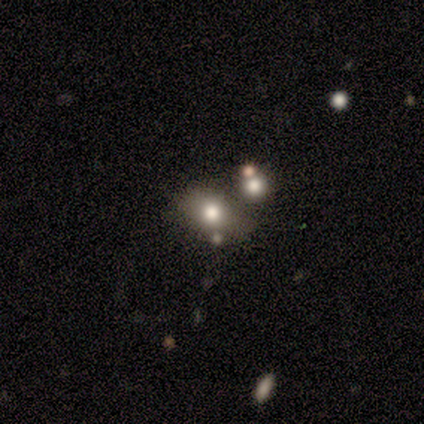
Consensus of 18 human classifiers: Overall: smooth (61%; star or artifact 28%). How rounded: in between (64%; round 36%). Merging: none (62%; merger 31%).